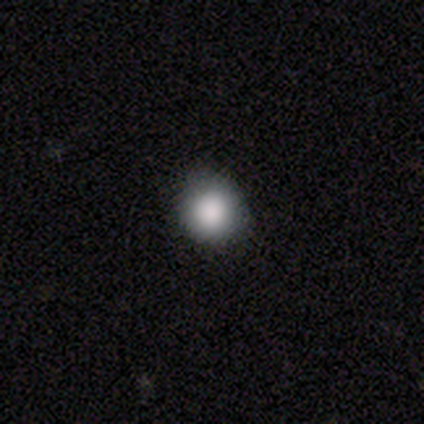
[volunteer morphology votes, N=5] Q: Smooth or featured?
A: smooth (100%)
Q: How rounded?
A: round (100%)
Q: Merging?
A: none (100%)